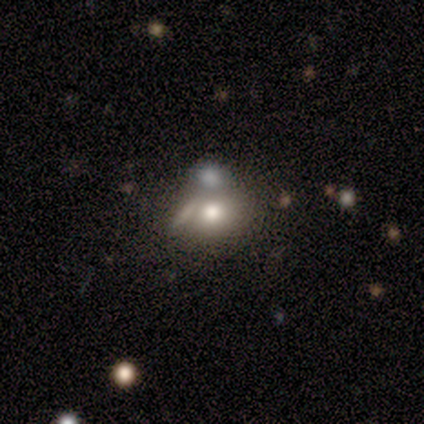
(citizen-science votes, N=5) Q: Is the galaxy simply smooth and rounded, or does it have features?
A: smooth — 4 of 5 (80%).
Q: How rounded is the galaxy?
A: round — 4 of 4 (100%).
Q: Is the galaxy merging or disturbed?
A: none — 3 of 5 (60%).